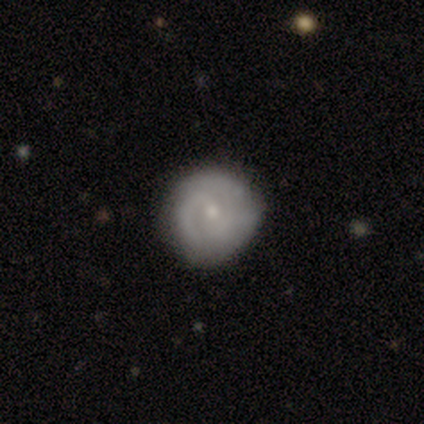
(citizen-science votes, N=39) Overall: featured or disk (59%; smooth 38%). Edge-on disk: no (96%). Bar: no (59%; weak 41%). Spiral arms: yes (82%). Spiral arm count: 2 (39%; can't tell 33%). Spiral winding: tight (56%; medium 28%). Bulge size: small (55%; moderate 45%). Merging: none (76%).